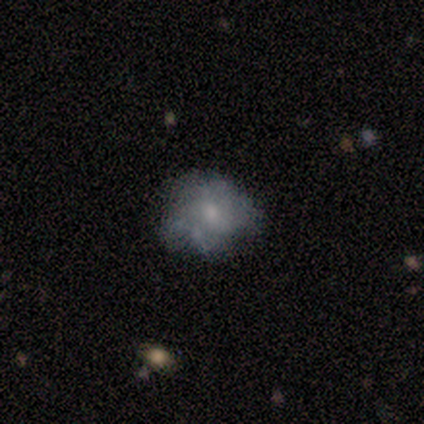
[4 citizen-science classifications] Overall: featured or disk (75%). Edge-on disk: no (100%). Bar: no (67%; weak 33%). Spiral arms: no (67%; yes 33%). Bulge size: small (67%; none 33%). Merging: none (50%, tied with minor disturbance).